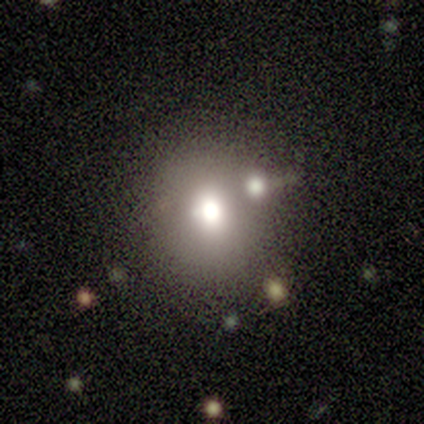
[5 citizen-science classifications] Q: Smooth or featured?
A: featured or disk (60%); runner-up: smooth (20%)
Q: Edge-on disk?
A: no (67%); runner-up: yes (33%)
Q: Bar?
A: no (100%)
Q: Spiral arms?
A: no (100%)
Q: Bulge size?
A: moderate (100%)
Q: Merging?
A: none (50%); tied with: merger (50%)